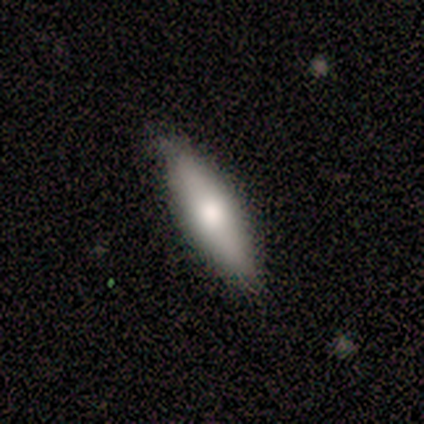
This is clearly a featured or disk galaxy (80%). It is likely viewed edge-on (75%). Edge-on bulge: clearly rounded (100%). Merging: clearly none (80%).